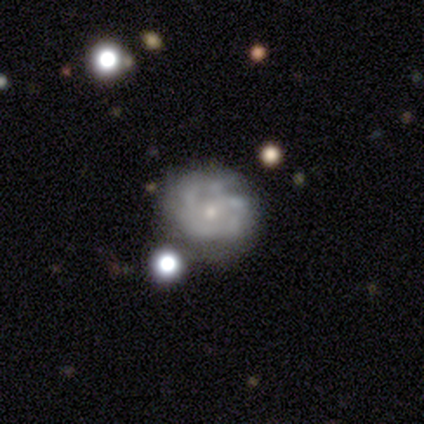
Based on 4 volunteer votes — smooth_or_featured: featured or disk (p=0.75) [alt: smooth p=0.25]
disk_edge_on: no (p=1.00)
bar: no (p=1.00)
has_spiral_arms: yes (p=1.00)
spiral_winding: tight (p=0.67) [alt: medium p=0.33]
spiral_arm_count: can't tell (p=1.00)
bulge_size: small (p=1.00)
merging: none (p=0.50) [alt: minor disturbance p=0.25]